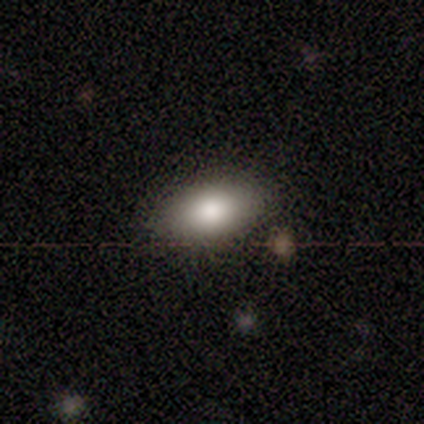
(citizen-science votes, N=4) smooth_or_featured: smooth (p=1.00)
how_rounded: in between (p=1.00)
merging: none (p=0.75) [alt: minor disturbance p=0.25]